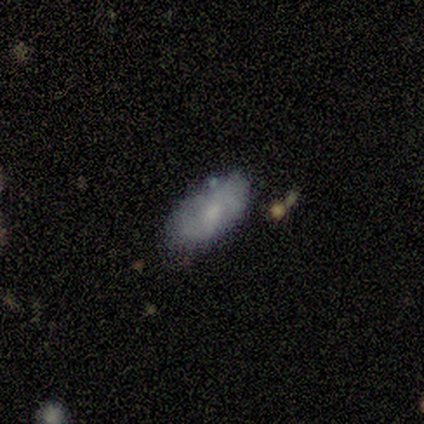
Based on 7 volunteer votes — smooth 86%, star or artifact 14%, featured or disk 0%. Down the decision tree: how rounded — in between (83%); merging — none (67%).